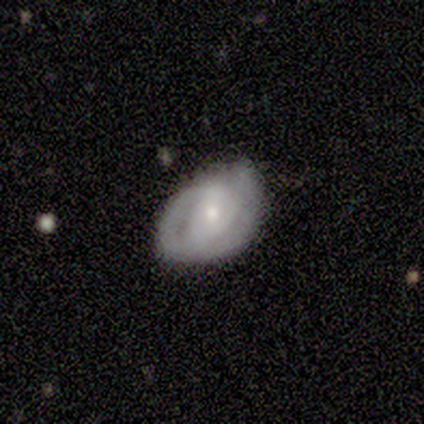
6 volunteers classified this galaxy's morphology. smooth-or-featured: featured or disk: 67% | smooth: 33% | star or artifact: 0%
  disk-edge-on: no: 100% | yes: 0%
    bar: weak: 50% (tied) | no: 50% (tied) | strong: 0%
    has-spiral-arms: no: 100% | yes: 0%
    bulge-size: dominant: 25% (tied) | large: 25% (tied) | moderate: 25% (tied) | none: 25% (tied) | small: 0%
  merging: none: 67% | minor disturbance: 33% | major disturbance: 0% | merger: 0%